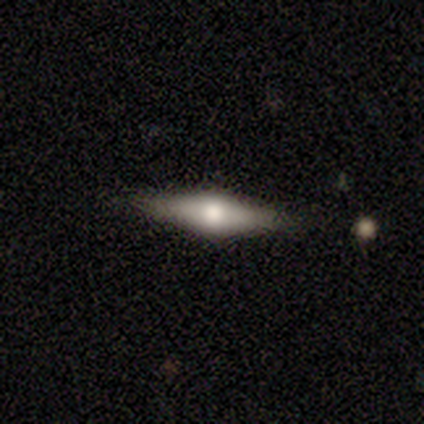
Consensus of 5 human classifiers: Q: Smooth or featured?
A: featured or disk (100%)
Q: Edge-on disk?
A: yes (100%)
Q: Edge-on bulge?
A: rounded (100%)
Q: Merging?
A: none (100%)